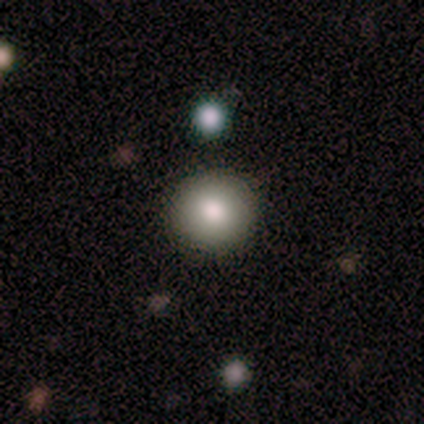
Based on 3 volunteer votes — Volunteers were most divided on "smooth or featured": smooth: 67%, featured or disk: 33%, star or artifact: 0%. More confident: how rounded — round (100%); merging — none (100%).